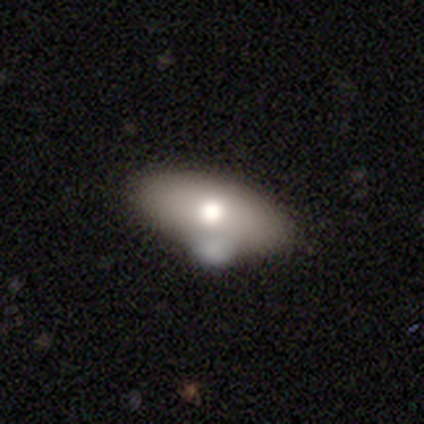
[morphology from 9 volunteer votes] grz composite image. It shows a smooth galaxy with no disk features (67%) that is in between round and cigar-shaped (100%). Merging: none (57%).